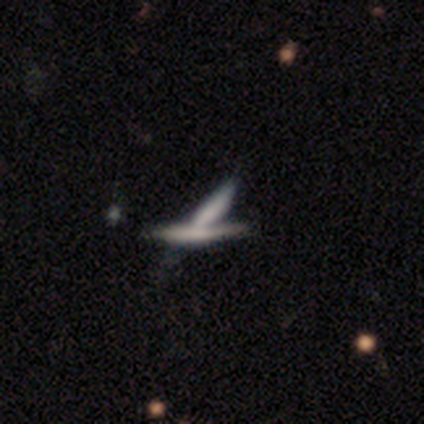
Smooth or featured: smooth — 75% (featured or disk — 12%)
How rounded: cigar-shaped — 100%
Merging: merger — 86% (none — 14%)